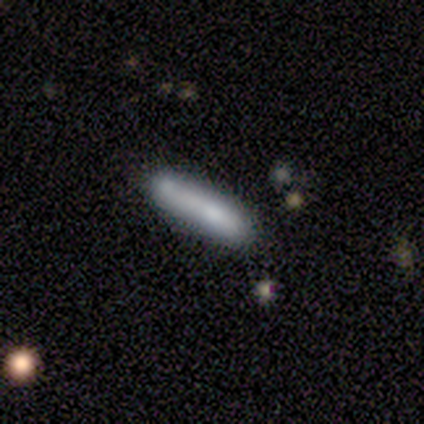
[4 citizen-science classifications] Smooth or featured? smooth (75%)
How rounded? cigar-shaped (100%)
Merging? none (33%, tied with minor disturbance and major disturbance)